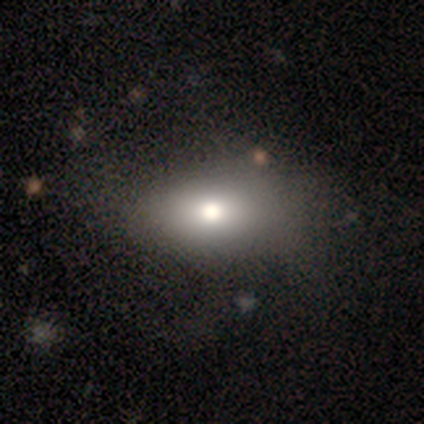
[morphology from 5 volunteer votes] smooth 100%, featured or disk 0%, star or artifact 0%. Down the decision tree: how rounded — in between (100%); merging — none (40%, tied with major disturbance).